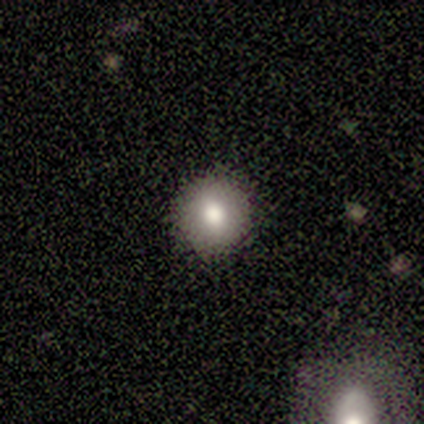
This is likely a smooth galaxy (76%). How rounded: clearly round (93%). Merging: clearly none (97%).